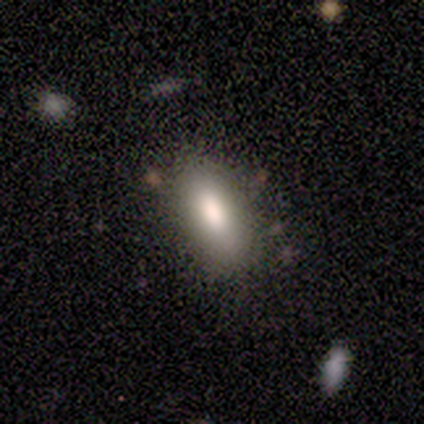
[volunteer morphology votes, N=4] Smooth or featured: smooth — 75% (featured or disk — 25%)
How rounded: in between — 67% (cigar-shaped — 33%)
Merging: none — 100%